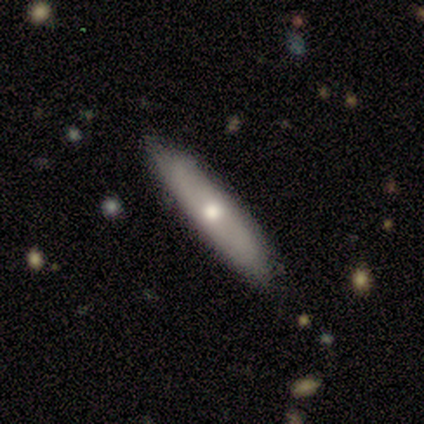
smooth_or_featured: featured or disk (p=0.80) [alt: smooth p=0.20]
disk_edge_on: no (p=0.75) [alt: yes p=0.25]
bar: no (p=1.00)
has_spiral_arms: no (p=0.67) [alt: yes p=0.33]
bulge_size: large (p=0.33) [tied with: moderate p=0.33, small p=0.33]
merging: none (p=0.80) [alt: minor disturbance p=0.20]